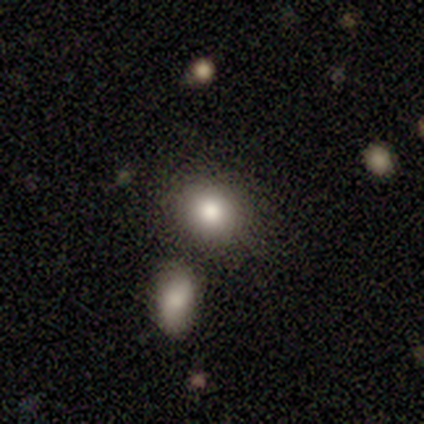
Q: Smooth or featured?
A: smooth (100%)
Q: How rounded?
A: round (60%); runner-up: in between (40%)
Q: Merging?
A: none (80%); runner-up: merger (20%)